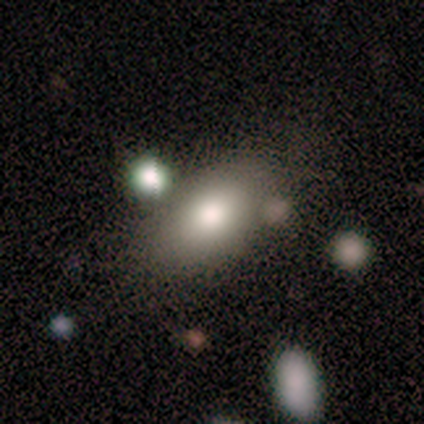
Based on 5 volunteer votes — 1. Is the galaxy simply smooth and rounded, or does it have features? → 80% smooth, 20% featured or disk, 0% star or artifact.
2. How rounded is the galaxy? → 100% in between, 0% round, 0% cigar-shaped.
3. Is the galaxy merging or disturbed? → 80% none, 20% merger, 0% minor disturbance, 0% major disturbance.